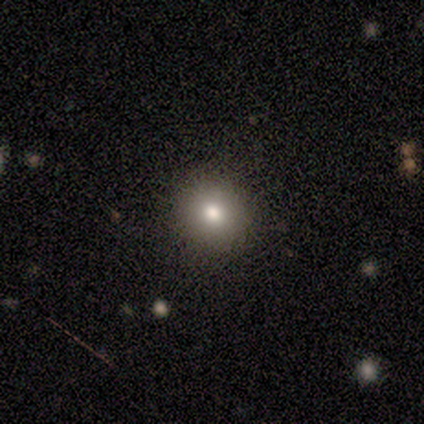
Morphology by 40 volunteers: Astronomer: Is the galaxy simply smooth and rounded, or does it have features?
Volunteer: smooth — 70%.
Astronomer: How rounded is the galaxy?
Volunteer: round — 86%.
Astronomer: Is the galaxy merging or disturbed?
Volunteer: none — 94%.